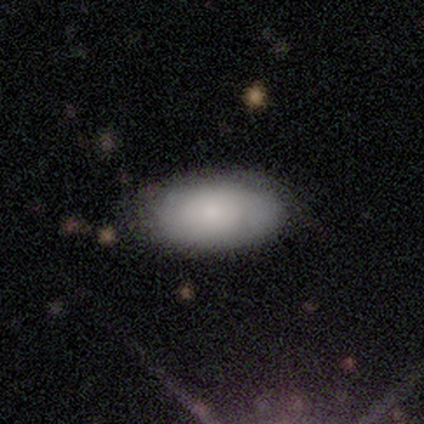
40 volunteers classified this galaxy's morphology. Volunteers were most divided on "merging": none: 58%, minor disturbance: 5%, major disturbance: 3%, merger: 0%. More confident: how rounded — in between (100%); smooth or featured — smooth (80%).